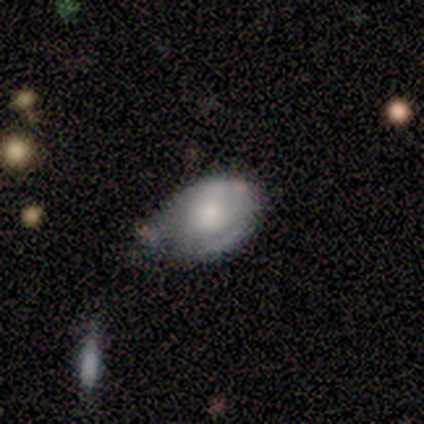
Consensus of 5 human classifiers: A featured or disk galaxy (80%) with no bar (100%), 1 (50%, tied with can't tell) tight (50%, tied with loose) spiral arms (50%, tied with no) and a small central bulge (75%). Merging: none (50%, tied with minor disturbance).